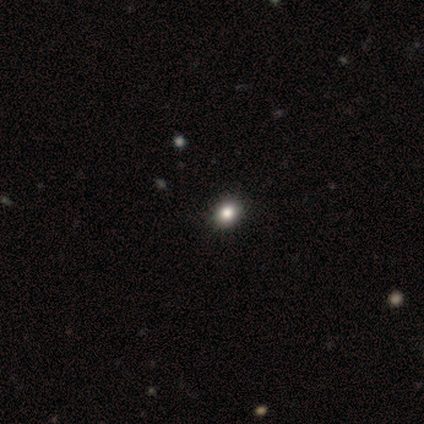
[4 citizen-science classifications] This appears to be a smooth galaxy with no disk features (75%) that is round (67%). Merging: none (75%).